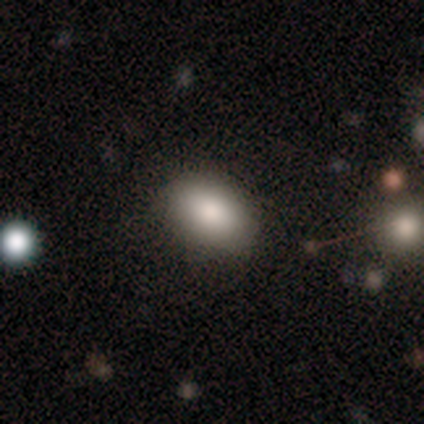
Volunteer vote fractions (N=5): Smooth or featured: smooth — 80% (featured or disk — 20%)
How rounded: in between — 100%
Merging: none — 60% (minor disturbance — 20%)